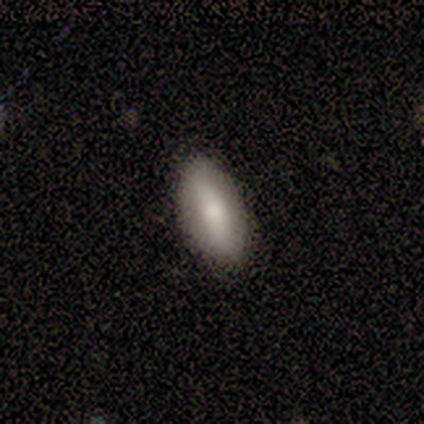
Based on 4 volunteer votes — A smooth galaxy with no disk features (75%) that is in between round and cigar-shaped (100%). Merging: none (100%).